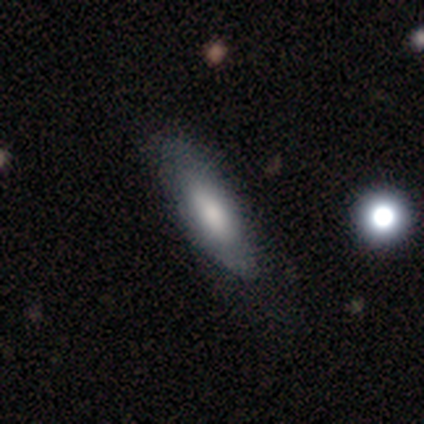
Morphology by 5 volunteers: smooth_or_featured: smooth (p=0.60) [alt: featured or disk p=0.20]
how_rounded: cigar-shaped (p=1.00)
merging: none (p=0.75) [alt: merger p=0.25]